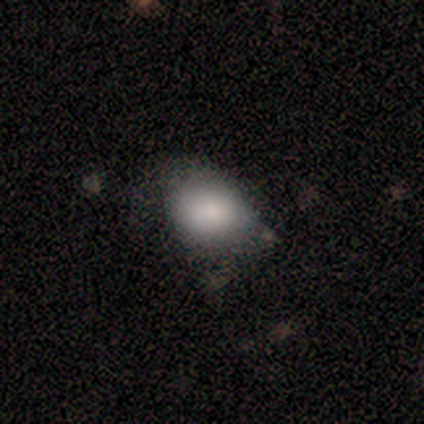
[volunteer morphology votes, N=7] This appears to be a smooth galaxy with no disk features (71%) that is round (60%). Merging: none (60%).